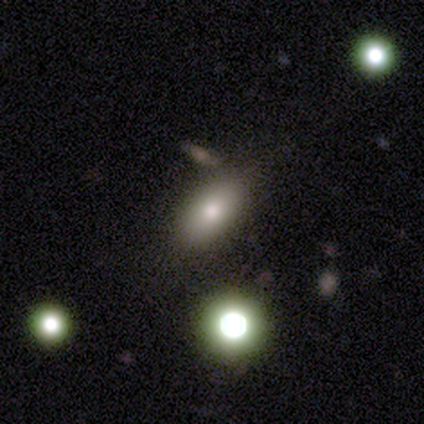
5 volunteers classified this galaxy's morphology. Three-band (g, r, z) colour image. It shows a smooth galaxy with no disk features (60%) that is in between round and cigar-shaped (100%). Merging: none (60%).